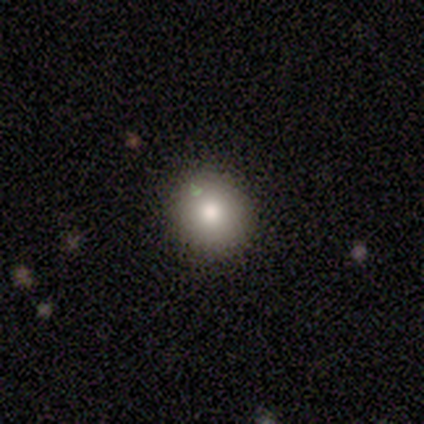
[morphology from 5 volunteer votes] Overall: smooth (60%; featured or disk 20%). How rounded: round (100%). Merging: none (100%).